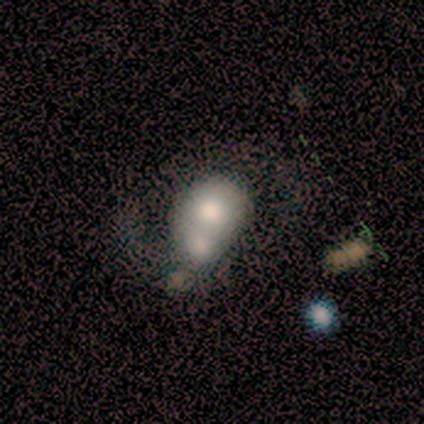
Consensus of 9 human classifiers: A featured or disk galaxy (56%) with no bar (60%), 2 (67%) loose (67%) spiral arms (60%) and a moderate central bulge (40%).

Vote fractions:
- Smooth or featured? featured or disk: 56% / smooth: 44% / star or artifact: 0%
- Edge-on disk? no: 100% / yes: 0%
- Bar? no: 60% / strong: 20% / weak: 20%
- Spiral arms? yes: 60% / no: 40%
- Spiral winding? loose: 67% / medium: 33% / tight: 0%
- Spiral arm count? 2: 67% / can't tell: 33% / 1: 0% / 3: 0% / 4: 0% / more than 4: 0%
- Bulge size? moderate: 40% / dominant: 20% / large: 20% / small: 20% / none: 0%
- Merging? merger: 44% / minor disturbance: 33% / major disturbance: 22% / none: 0%